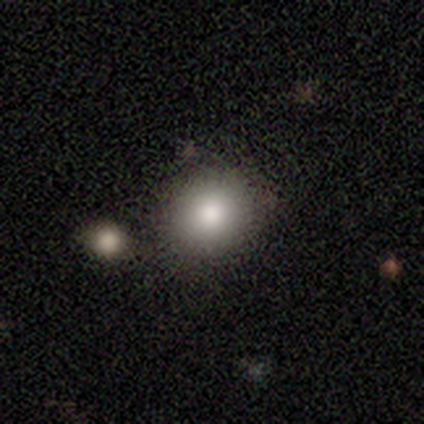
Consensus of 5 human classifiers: Smooth or featured? smooth (100%)
How rounded? round (80%)
Merging? none (80%)